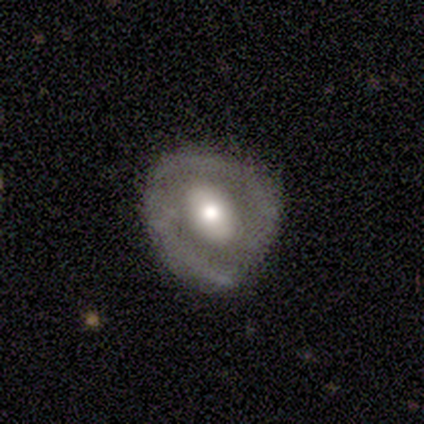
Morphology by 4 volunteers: Q: Smooth or featured?
A: featured or disk (75%); runner-up: smooth (25%)
Q: Edge-on disk?
A: no (100%)
Q: Bar?
A: no (67%); runner-up: strong (33%)
Q: Spiral arms?
A: yes (67%); runner-up: no (33%)
Q: Spiral winding?
A: tight (50%); tied with: loose (50%)
Q: Spiral arm count?
A: 2 (100%)
Q: Bulge size?
A: moderate (67%); runner-up: large (33%)
Q: Merging?
A: none (50%); tied with: minor disturbance (50%)